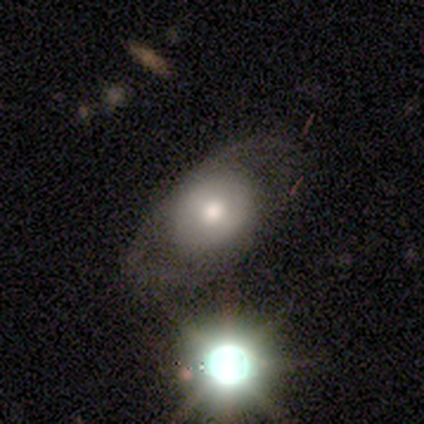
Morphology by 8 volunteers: This is likely a smooth galaxy (62%). How rounded: likely round (60%). Merging: possibly minor disturbance (50%).